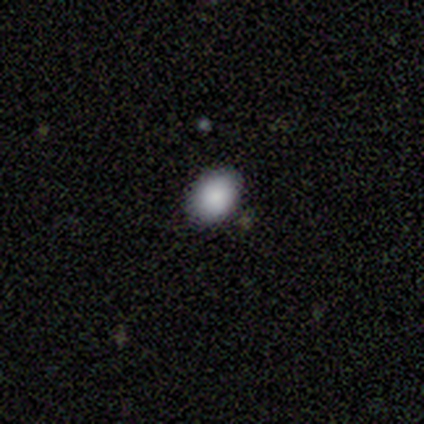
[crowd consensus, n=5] Smooth or featured? smooth (80%)
How rounded? round (50%, tied with in between)
Merging? none (100%)